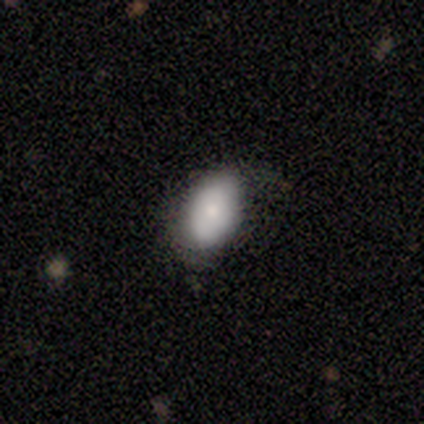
Morphology: type=smooth (80%); roundness=in between (100%); merging=minor disturbance (60%).